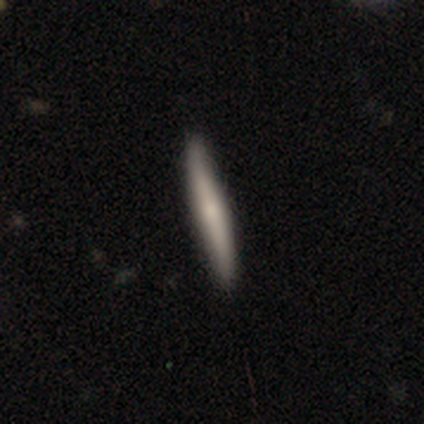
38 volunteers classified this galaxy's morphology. Smooth or featured? 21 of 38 (55%) said smooth. How rounded? 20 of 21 (95%) said cigar-shaped. Merging? 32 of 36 (89%) said none.